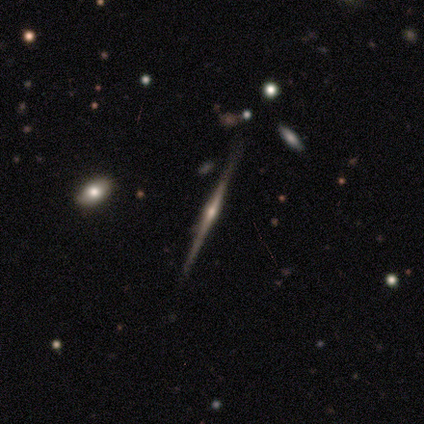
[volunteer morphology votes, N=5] Smooth or featured? featured or disk (100%)
Edge-on disk? yes (100%)
Edge-on bulge? rounded (80%)
Merging? none (80%)